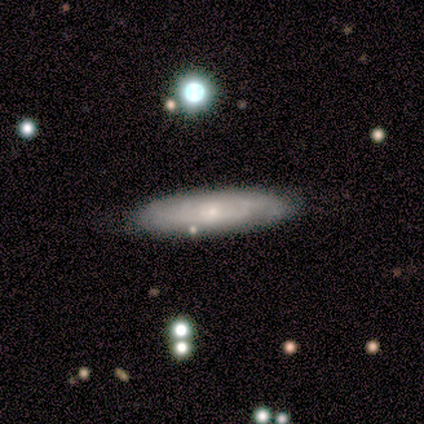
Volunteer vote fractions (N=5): Q: Smooth or featured?
A: featured or disk (60%); runner-up: smooth (40%)
Q: Edge-on disk?
A: no (100%)
Q: Bar?
A: no (67%); runner-up: weak (33%)
Q: Spiral arms?
A: yes (67%); runner-up: no (33%)
Q: Spiral winding?
A: tight (100%)
Q: Spiral arm count?
A: 4 (50%); tied with: can't tell (50%)
Q: Bulge size?
A: small (100%)
Q: Merging?
A: none (100%)